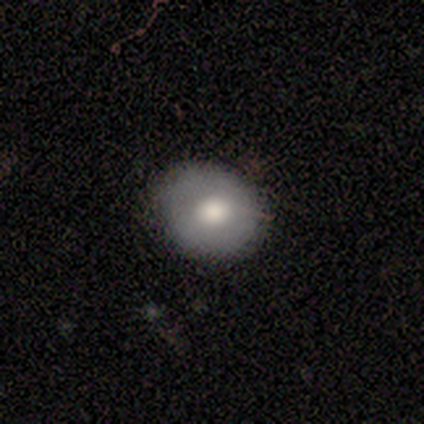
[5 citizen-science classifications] Smooth or featured: smooth — 60% (featured or disk — 40%)
How rounded: round — 100%
Merging: none — 80% (minor disturbance — 20%)